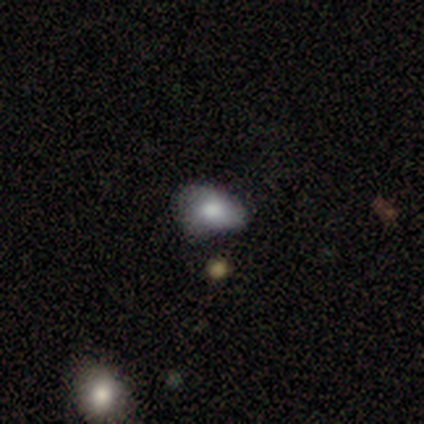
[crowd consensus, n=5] Smooth or featured? 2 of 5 (40%, tied with featured or disk) said smooth. How rounded? 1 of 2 (50%, tied with in between) said round. Merging? 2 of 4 (50%) said minor disturbance.